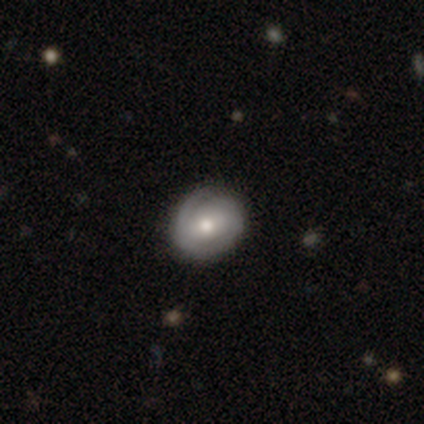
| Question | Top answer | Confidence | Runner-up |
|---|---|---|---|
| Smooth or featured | featured or disk | 71% | smooth (29%) |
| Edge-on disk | no | 60% | yes (40%) |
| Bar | strong | 33% | tied: weak (33%), no (33%) |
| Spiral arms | yes | 67% | no (33%) |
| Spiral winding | tight | 100% | — |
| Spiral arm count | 2 | 100% | — |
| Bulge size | large | 33% | tied: moderate (33%), small (33%) |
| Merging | none | 57% | minor disturbance (29%) |